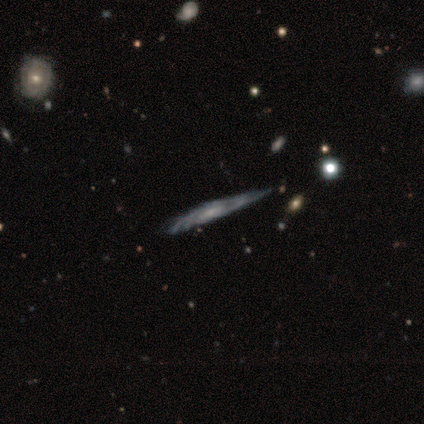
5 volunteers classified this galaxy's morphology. A featured or disk galaxy (60%) with a weak bar (50%, tied with no), tight (100%) spiral arms (100%) and a small central bulge (100%). Merging: none (60%).